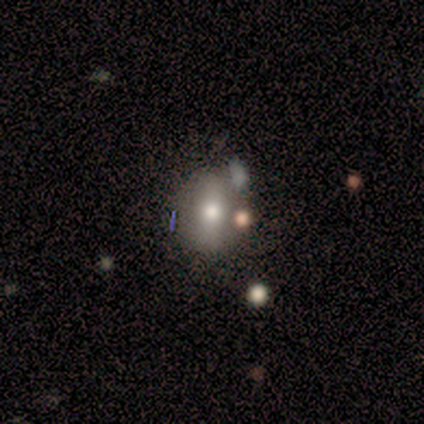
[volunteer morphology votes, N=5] Smooth or featured? 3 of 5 (60%) said featured or disk. Edge-on disk? 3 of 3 (100%) said no. Bar? 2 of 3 (67%) said weak. Spiral arms? 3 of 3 (100%) said no. Bulge size? 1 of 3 (33%, tied with moderate and small) said large. Merging? 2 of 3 (67%) said none.